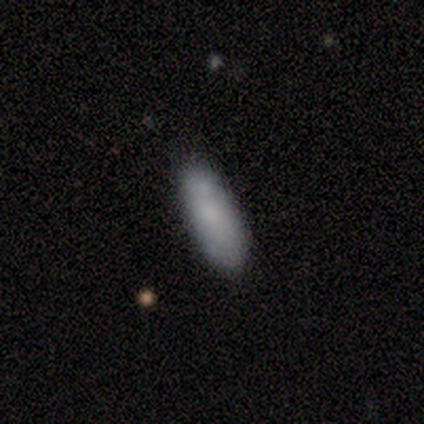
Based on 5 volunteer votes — Q: Smooth or featured?
A: smooth (80%); runner-up: star or artifact (20%)
Q: How rounded?
A: in between (100%)
Q: Merging?
A: none (100%)